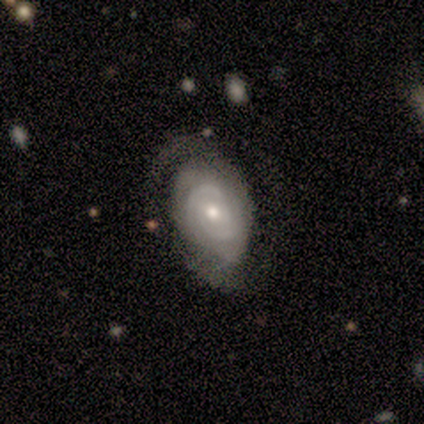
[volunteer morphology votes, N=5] Overall: featured or disk (80%). Edge-on disk: no (100%). Bar: no (75%). Spiral arms: yes (100%). Spiral arm count: 2 (75%). Spiral winding: tight (75%). Bulge size: moderate (75%). Merging: none (60%; major disturbance 20%).